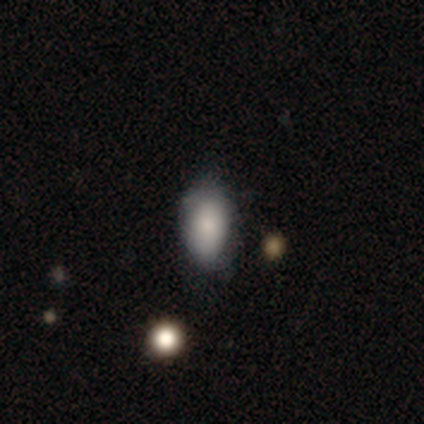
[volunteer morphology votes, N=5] Smooth or featured: smooth — 60% (featured or disk — 20%)
How rounded: in between — 100%
Merging: none — 75% (minor disturbance — 25%)